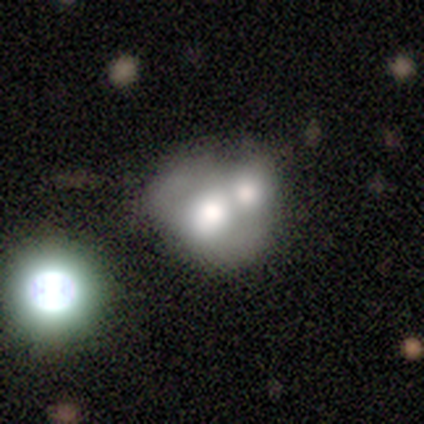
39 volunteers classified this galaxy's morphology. Smooth or featured? 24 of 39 (62%) said smooth. How rounded? 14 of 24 (58%) said round. Merging? 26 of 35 (74%) said merger.